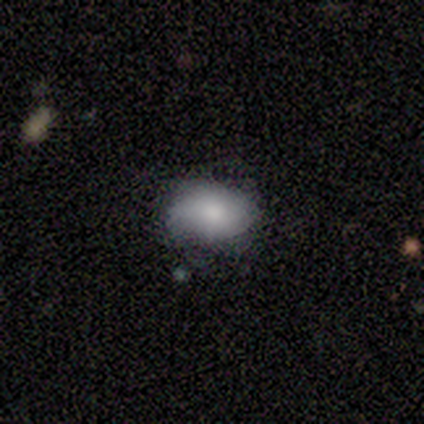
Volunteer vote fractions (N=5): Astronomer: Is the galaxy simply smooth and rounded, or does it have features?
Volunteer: smooth — 100%.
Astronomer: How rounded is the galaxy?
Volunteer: in between — 100%.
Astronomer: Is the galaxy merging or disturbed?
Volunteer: none — 80%.